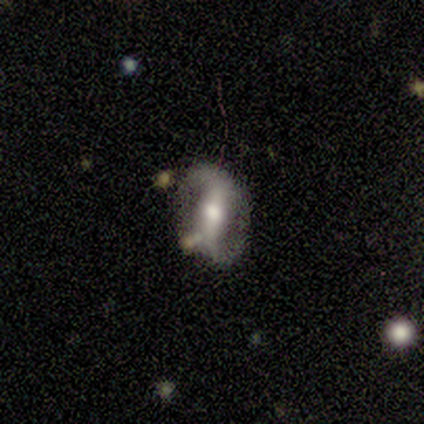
A featured or disk galaxy (100%) with a strong bar (40%, tied with no), 2 (100%) loose (80%) spiral arms (100%) and a moderate central bulge (60%).

Vote fractions:
- Smooth or featured? featured or disk: 100% / smooth: 0% / star or artifact: 0%
- Edge-on disk? no: 100% / yes: 0%
- Bar? strong: 40% (tied) / no: 40% (tied) / weak: 20%
- Spiral arms? yes: 100% / no: 0%
- Spiral winding? loose: 80% / medium: 20% / tight: 0%
- Spiral arm count? 2: 100% / 1: 0% / 3: 0% / 4: 0% / more than 4: 0% / can't tell: 0%
- Bulge size? moderate: 60% / large: 20% / small: 20% / dominant: 0% / none: 0%
- Merging? none: 80% / minor disturbance: 20% / major disturbance: 0% / merger: 0%